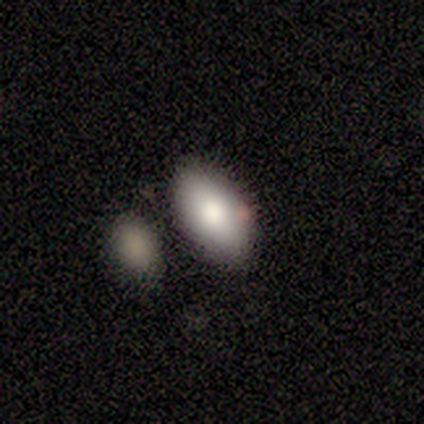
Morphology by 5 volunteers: A smooth galaxy with no disk features (100%) that is in between round and cigar-shaped (100%).

Vote fractions:
- Smooth or featured? smooth: 100% / featured or disk: 0% / star or artifact: 0%
- How rounded? in between: 100% / round: 0% / cigar-shaped: 0%
- Merging? none: 100% / minor disturbance: 0% / major disturbance: 0% / merger: 0%